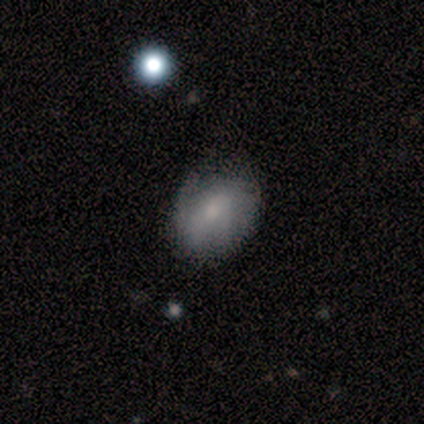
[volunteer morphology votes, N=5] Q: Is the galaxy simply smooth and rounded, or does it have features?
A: smooth — 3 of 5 (60%).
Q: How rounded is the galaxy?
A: in between — 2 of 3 (67%).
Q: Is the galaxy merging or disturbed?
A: none — 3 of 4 (75%).